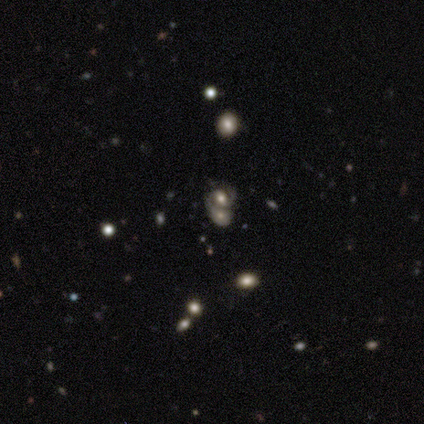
featured or disk 75%, smooth 25%, star or artifact 0%. Down the decision tree: edge-on disk — no (100%); bar — no (67%); spiral arms — yes (67%); spiral arm count — 2 (50%, tied with can't tell); spiral winding — medium (100%); bulge size — moderate (67%); merging — merger (50%).